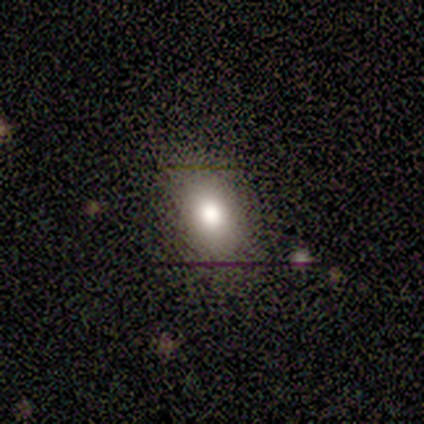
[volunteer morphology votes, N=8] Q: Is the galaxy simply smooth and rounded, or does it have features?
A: smooth — 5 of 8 (62%).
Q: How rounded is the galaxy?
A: in between — 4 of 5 (80%).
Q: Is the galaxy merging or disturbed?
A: none — 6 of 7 (86%).